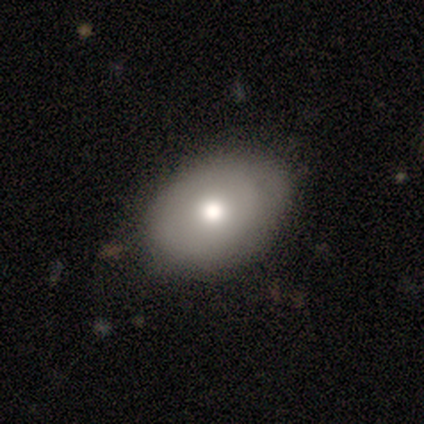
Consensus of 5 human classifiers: This appears to be a smooth galaxy with no disk features (80%) that is round (50%, tied with in between). Merging: none (100%).